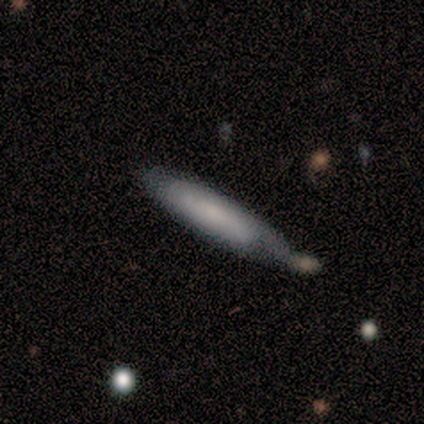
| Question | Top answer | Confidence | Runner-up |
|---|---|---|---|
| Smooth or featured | smooth | 80% | featured or disk (20%) |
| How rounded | in between | 50% | tied: cigar-shaped (50%) |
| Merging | none | 40% | minor disturbance (20%) |